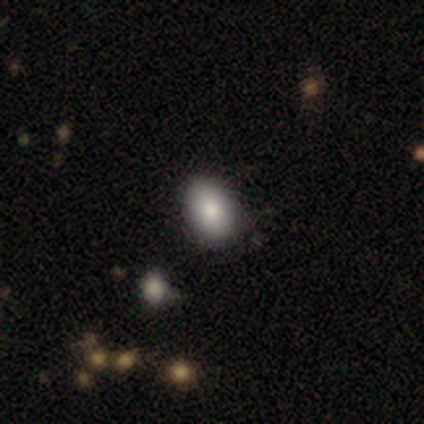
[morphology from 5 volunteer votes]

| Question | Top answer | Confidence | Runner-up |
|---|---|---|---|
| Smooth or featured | smooth | 100% | — |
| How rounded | in between | 80% | cigar-shaped (20%) |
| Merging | none | 100% | — |